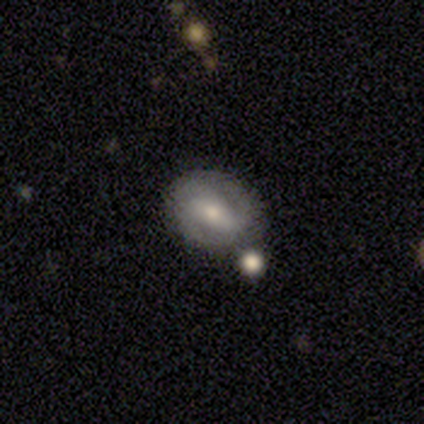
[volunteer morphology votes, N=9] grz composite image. It shows a featured or disk galaxy (56%) with a weak bar (80%), 2 (67%) tight (67%) spiral arms (60%) and a small central bulge (80%). Merging: none (75%).